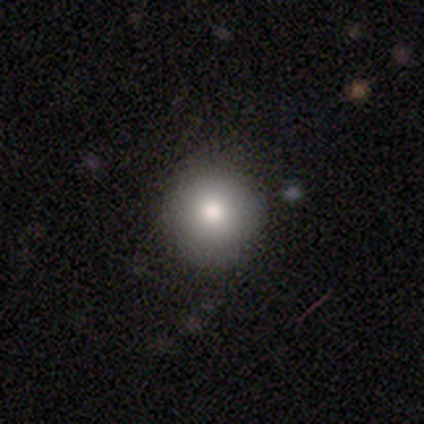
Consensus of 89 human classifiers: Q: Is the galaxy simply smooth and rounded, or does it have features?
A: smooth — 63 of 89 (71%).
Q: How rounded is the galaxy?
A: round — 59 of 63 (94%).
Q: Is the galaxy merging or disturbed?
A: none — 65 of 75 (87%).